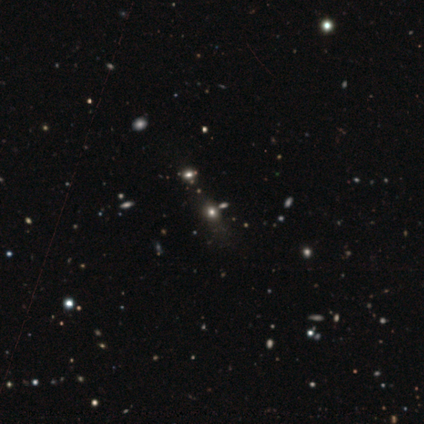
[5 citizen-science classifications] smooth-or-featured: smooth: 40% (tied) | star or artifact: 40% (tied) | featured or disk: 20%
  how-rounded: round: 50% (tied) | in between: 50% (tied) | cigar-shaped: 0%
  merging: none: 67% | minor disturbance: 33% | major disturbance: 0% | merger: 0%